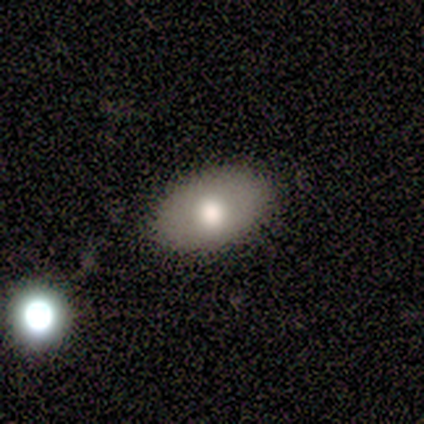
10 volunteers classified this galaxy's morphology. Q: Smooth or featured?
A: smooth (80%); runner-up: featured or disk (20%)
Q: How rounded?
A: in between (100%)
Q: Merging?
A: none (100%)